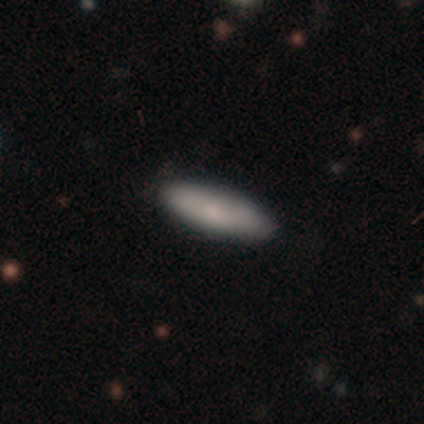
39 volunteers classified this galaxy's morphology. Volunteers were most divided on "smooth or featured": smooth: 72%, featured or disk: 23%, star or artifact: 5%. More confident: merging — none (89%); how rounded — cigar-shaped (82%).